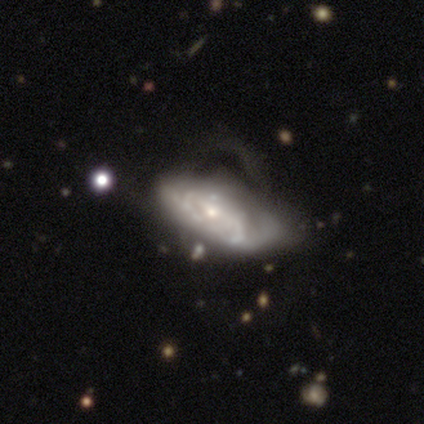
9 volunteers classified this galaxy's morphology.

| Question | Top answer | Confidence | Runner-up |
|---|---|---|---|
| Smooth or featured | featured or disk | 56% | smooth (44%) |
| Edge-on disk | no | 80% | yes (20%) |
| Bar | no | 75% | weak (25%) |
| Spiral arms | yes | 50% | tied: no (50%) |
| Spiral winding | tight | 100% | — |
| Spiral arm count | can't tell | 100% | — |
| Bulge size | moderate | 50% | tied: small (50%) |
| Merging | major disturbance | 67% | none (22%) |